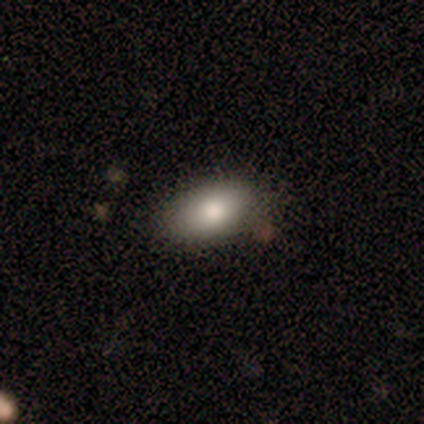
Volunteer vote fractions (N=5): Smooth or featured? 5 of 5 (100%) said smooth. How rounded? 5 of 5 (100%) said in between. Merging? 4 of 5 (80%) said none.